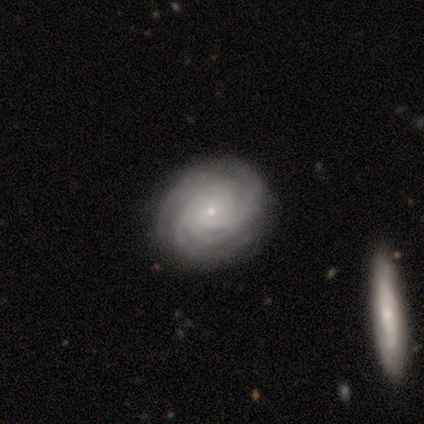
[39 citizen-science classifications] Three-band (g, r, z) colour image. It shows a featured or disk galaxy (95%) with no bar (86%), tight (83%) spiral arms (97%) and a small central bulge (89%). Merging: none (54%).